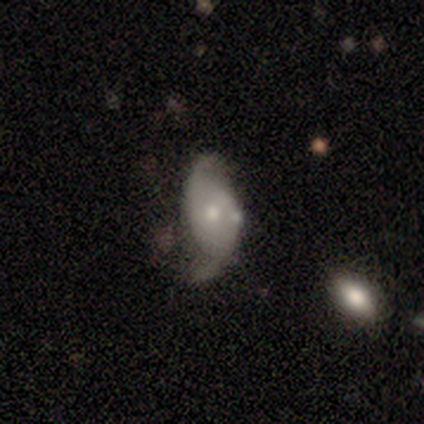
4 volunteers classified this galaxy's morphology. This appears to be a featured or disk galaxy (75%) with no bar (100%), 2 (100%) tight (33%, tied with medium and loose) spiral arms (100%) and a small central bulge (100%). Merging: none (50%, tied with minor disturbance).